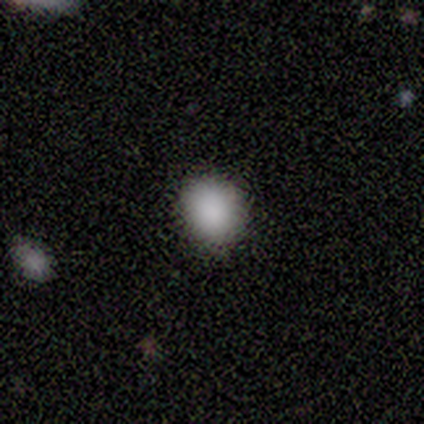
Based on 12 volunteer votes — A smooth galaxy with no disk features (100%) that is round (83%). Merging: none (75%).